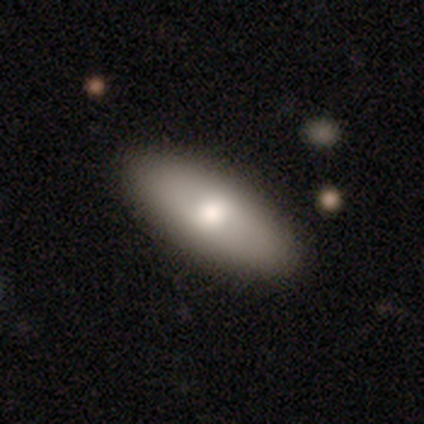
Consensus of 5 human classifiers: This is likely a featured or disk galaxy (60%). It is clearly not viewed edge-on (100%). Bar: likely no (67%). Spiral arm pattern: clearly no (100%). Central bulge: likely large (67%). Merging: clearly none (100%).